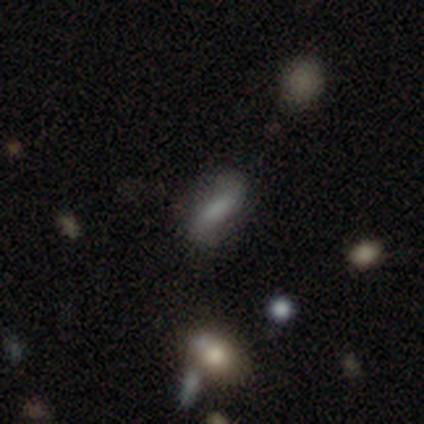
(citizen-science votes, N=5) Volunteers were most divided on "merging": none: 60%, major disturbance: 20%, merger: 20%, minor disturbance: 0%. More confident: smooth or featured — smooth (80%); how rounded — in between (75%).